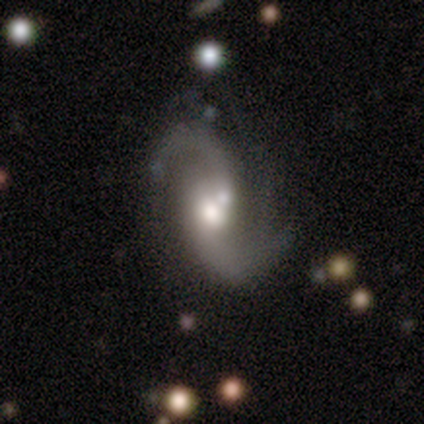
Q: Smooth or featured?
A: featured or disk (80%); runner-up: smooth (20%)
Q: Edge-on disk?
A: no (100%)
Q: Bar?
A: weak (100%)
Q: Spiral arms?
A: yes (100%)
Q: Spiral winding?
A: medium (50%); tied with: loose (50%)
Q: Spiral arm count?
A: 2 (100%)
Q: Bulge size?
A: moderate (75%); runner-up: large (25%)
Q: Merging?
A: none (60%); runner-up: merger (40%)